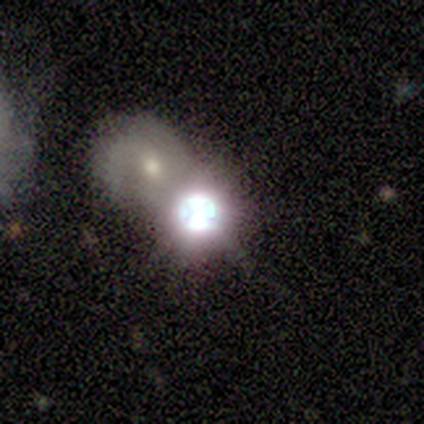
Smooth or featured? star or artifact (67%)